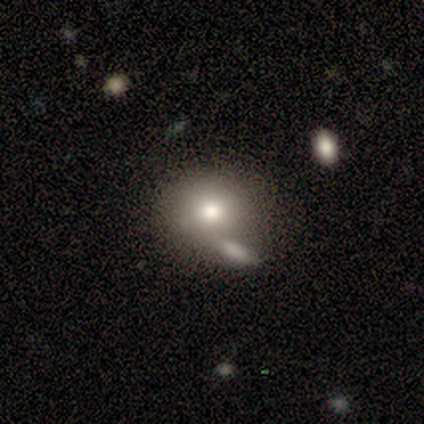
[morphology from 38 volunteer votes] Smooth or featured? 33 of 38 (87%) said smooth. How rounded? 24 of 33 (73%) said round. Merging? 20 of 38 (53%) said none.